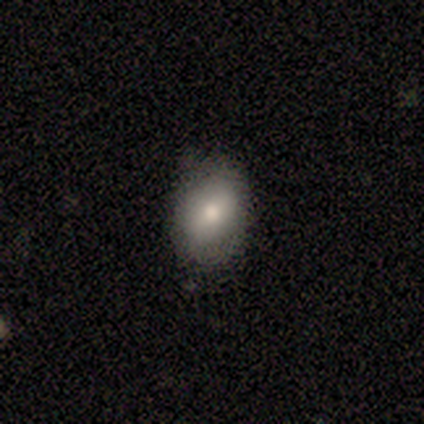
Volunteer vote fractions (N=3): smooth 33% (tied), featured or disk 33% (tied), star or artifact 33% (tied). Down the decision tree: how rounded — in between (100%); merging — none (100%).